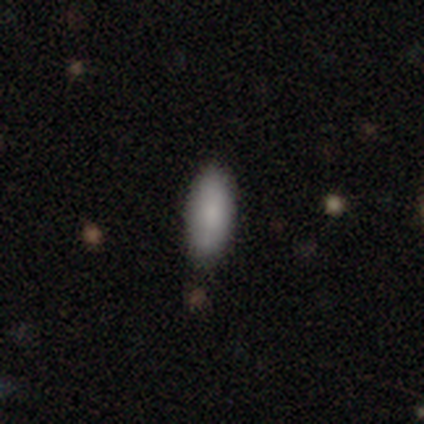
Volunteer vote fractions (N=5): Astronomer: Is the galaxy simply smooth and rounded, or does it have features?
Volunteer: smooth — 80%.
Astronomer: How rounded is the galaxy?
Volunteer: in between — 75%.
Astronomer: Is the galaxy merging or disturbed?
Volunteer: none — 75%.